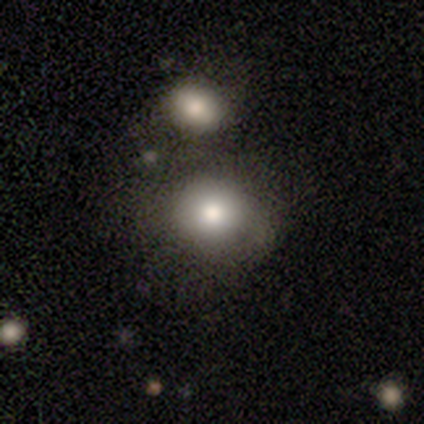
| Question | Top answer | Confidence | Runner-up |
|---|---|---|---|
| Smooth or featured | smooth | 75% | featured or disk (25%) |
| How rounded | round | 83% | in between (17%) |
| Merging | none | 75% | minor disturbance (12%) |